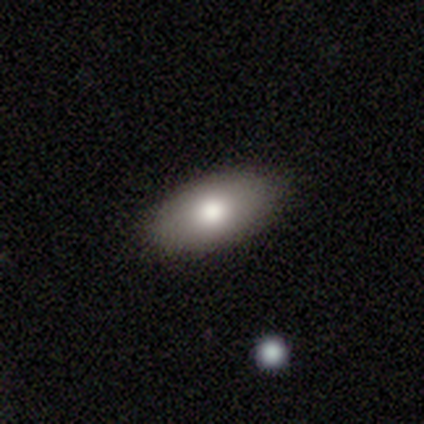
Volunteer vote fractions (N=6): This is clearly a smooth galaxy (83%). How rounded: clearly in between (100%). Merging: clearly none (100%).